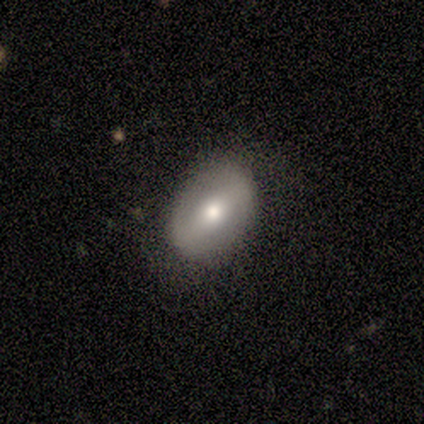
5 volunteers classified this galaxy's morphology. Smooth or featured? 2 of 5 (40%, tied with featured or disk) said smooth. How rounded? 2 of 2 (100%) said in between. Merging? 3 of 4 (75%) said none.